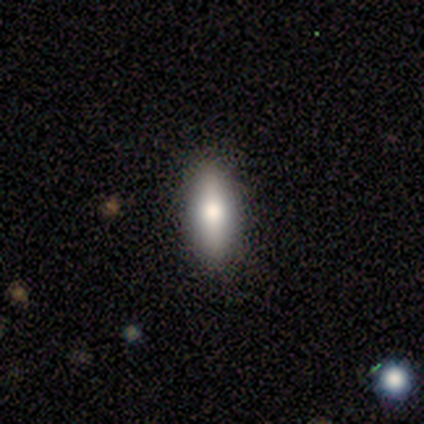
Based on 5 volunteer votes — This is clearly a smooth galaxy (80%). How rounded: likely in between (75%). Merging: clearly none (100%).